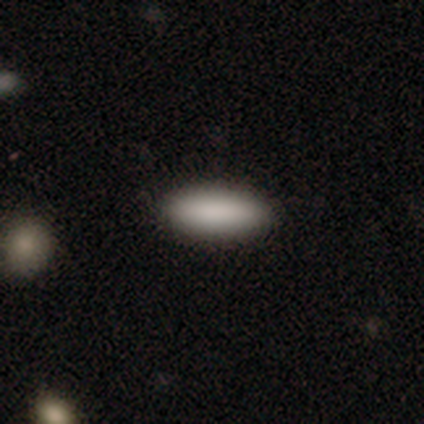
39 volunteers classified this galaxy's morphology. Overall: smooth (87%). How rounded: in between (62%; cigar-shaped 38%). Merging: none (100%).